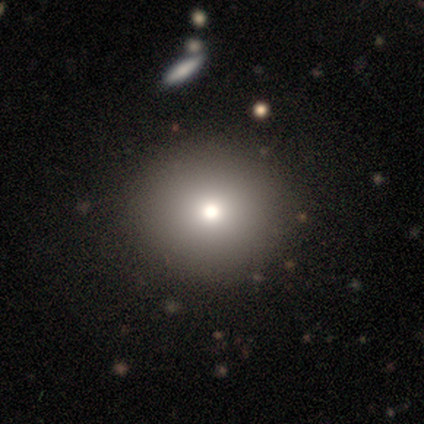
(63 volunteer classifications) Smooth or featured? smooth (83%)
How rounded? round (85%)
Merging? none (63%)